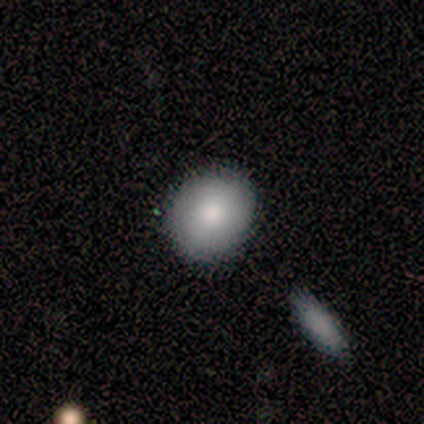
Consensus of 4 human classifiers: Smooth or featured? smooth (75%)
How rounded? in between (67%)
Merging? none (25%, tied with minor disturbance, major disturbance and merger)